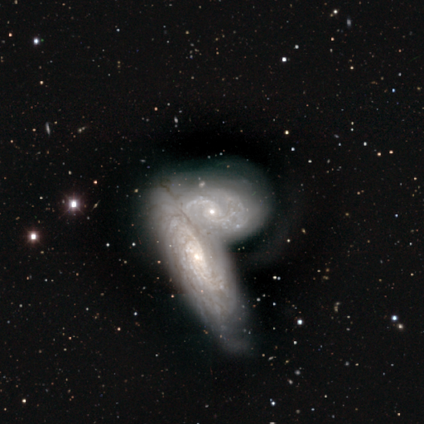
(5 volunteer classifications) A featured or disk galaxy (60%) with no bar (100%), 2 (33%, tied with 4 and more than 4) tight (100%) spiral arms (100%) and a small central bulge (67%). Merging: merger (100%).